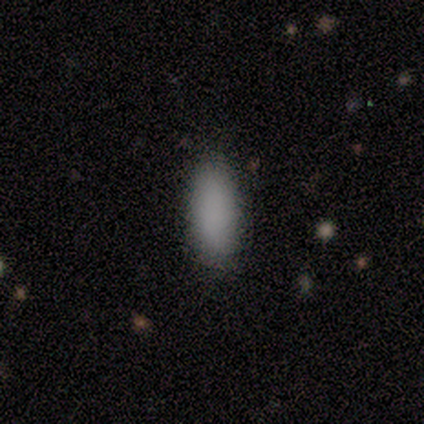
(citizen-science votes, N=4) A smooth galaxy with no disk features (75%) that is in between round and cigar-shaped (100%). Merging: none (67%).